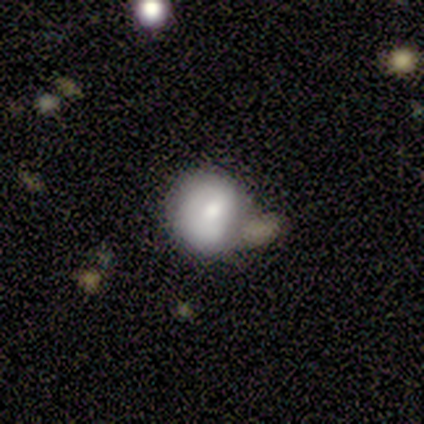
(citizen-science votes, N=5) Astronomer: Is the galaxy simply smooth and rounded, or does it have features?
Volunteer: smooth — 100%.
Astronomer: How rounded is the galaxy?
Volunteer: round — 80%.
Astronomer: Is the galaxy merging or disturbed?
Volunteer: merger — 60% (runner-up: minor disturbance, 40%).